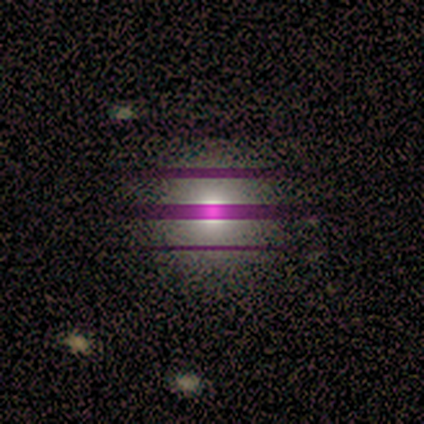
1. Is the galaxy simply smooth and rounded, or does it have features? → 43% star or artifact, 36% smooth, 21% featured or disk.